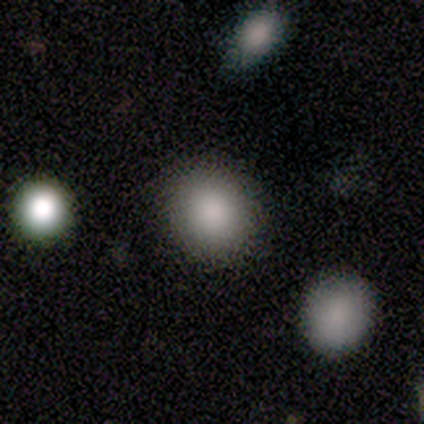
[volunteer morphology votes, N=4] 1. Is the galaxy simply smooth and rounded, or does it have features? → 100% smooth, 0% featured or disk, 0% star or artifact.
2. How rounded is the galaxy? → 75% round, 25% cigar-shaped, 0% in between.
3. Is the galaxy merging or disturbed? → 75% none, 25% minor disturbance, 0% major disturbance, 0% merger.